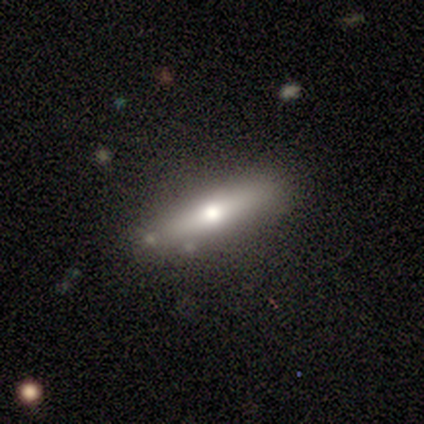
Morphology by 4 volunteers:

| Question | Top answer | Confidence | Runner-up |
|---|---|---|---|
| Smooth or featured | smooth | 75% | featured or disk (25%) |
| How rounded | cigar-shaped | 67% | in between (33%) |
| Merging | none | 50% | tied: minor disturbance (50%) |